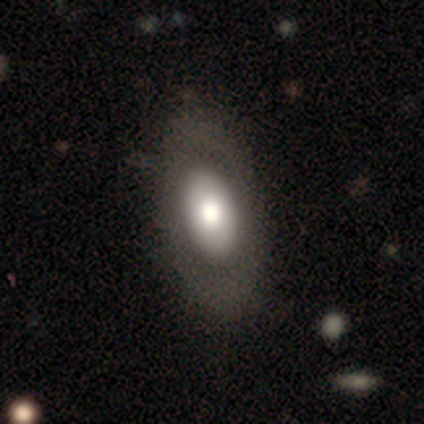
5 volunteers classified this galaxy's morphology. This appears to be a smooth galaxy with no disk features (80%) that is in between round and cigar-shaped (100%). Merging: none (100%).